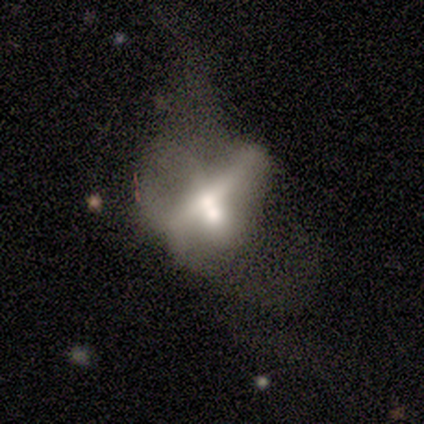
Volunteers were most divided on "smooth or featured" (2-way tie): smooth: 40%, featured or disk: 40%, star or artifact: 20%; "how rounded" (2-way tie): round: 50%, in between: 50%, cigar-shaped: 0%. More confident: merging — merger (75%).